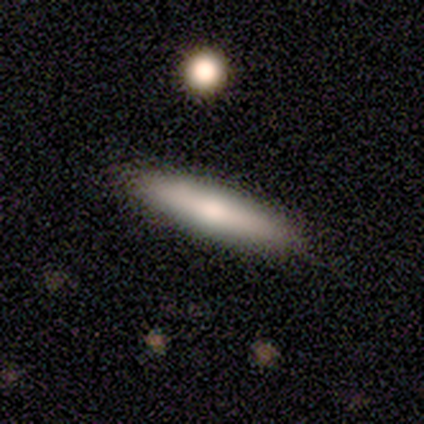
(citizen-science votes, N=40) Smooth or featured?
  - smooth: 62% *
  - featured or disk: 32%
  - star or artifact: 5%
How rounded?
  - cigar-shaped: 92% *
  - in between: 8%
  - round: 0%
Merging?
  - none: 61% *
  - merger: 11%
  - minor disturbance: 5%
  - major disturbance: 0%